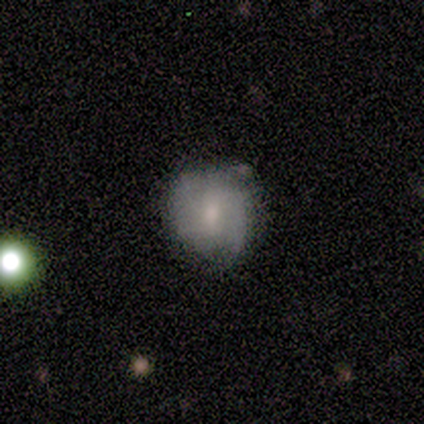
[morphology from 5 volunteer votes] Smooth or featured? 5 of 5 (100%) said smooth. How rounded? 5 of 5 (100%) said round. Merging? 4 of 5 (80%) said none.